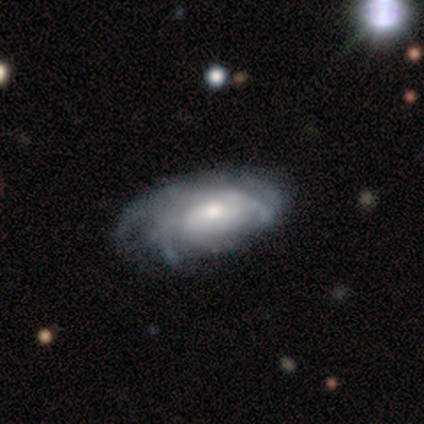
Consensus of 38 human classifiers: Smooth or featured? 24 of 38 (63%) said featured or disk. Edge-on disk? 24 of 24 (100%) said no. Bar? 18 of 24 (75%) said no. Spiral arms? 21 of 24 (88%) said yes. Spiral winding? 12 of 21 (57%) said tight. Spiral arm count? 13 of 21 (62%) said can't tell. Bulge size? 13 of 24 (54%) said small. Merging? 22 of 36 (61%) said none.